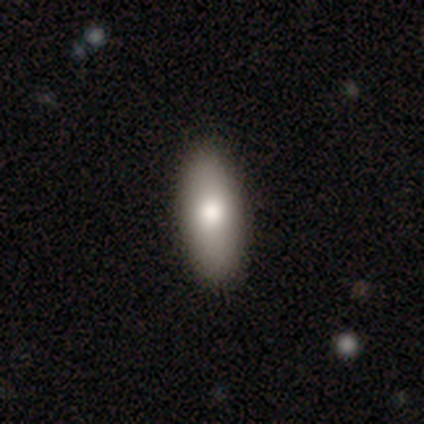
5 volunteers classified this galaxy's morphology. Smooth or featured? 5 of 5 (100%) said smooth. How rounded? 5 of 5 (100%) said in between. Merging? 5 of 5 (100%) said none.